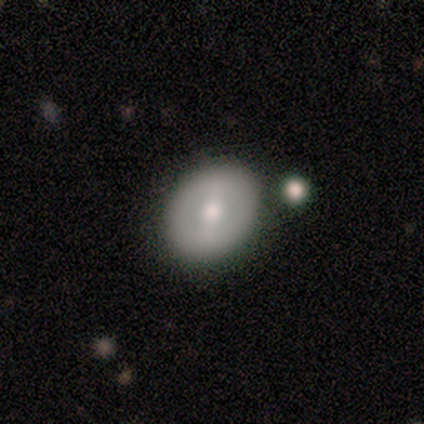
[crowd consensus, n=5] Q: Smooth or featured?
A: featured or disk (60%); runner-up: smooth (40%)
Q: Edge-on disk?
A: no (100%)
Q: Bar?
A: weak (67%); runner-up: strong (33%)
Q: Spiral arms?
A: no (100%)
Q: Bulge size?
A: moderate (67%); runner-up: large (33%)
Q: Merging?
A: none (80%); runner-up: minor disturbance (20%)